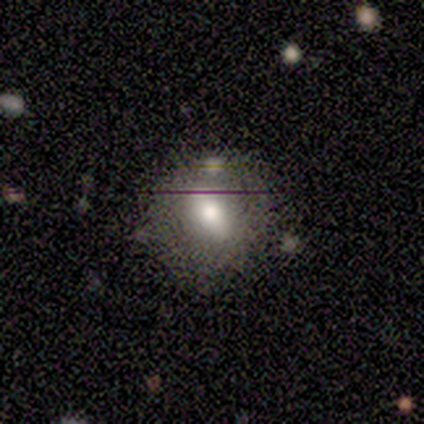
featured or disk 53%, smooth 33%, star or artifact 13%. Down the decision tree: edge-on disk — no (88%); bar — weak (86%); spiral arms — no (100%); bulge size — moderate (86%); merging — none (77%).